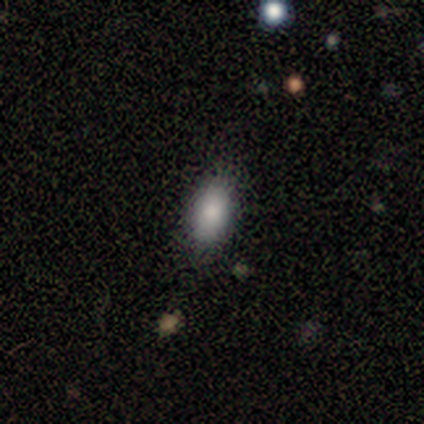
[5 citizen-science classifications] A smooth galaxy with no disk features (60%) that is in between round and cigar-shaped (100%).

Vote fractions:
- Smooth or featured? smooth: 60% / star or artifact: 40% / featured or disk: 0%
- How rounded? in between: 100% / round: 0% / cigar-shaped: 0%
- Merging? none: 100% / minor disturbance: 0% / major disturbance: 0% / merger: 0%